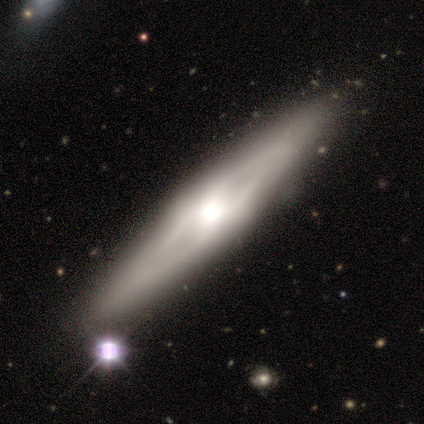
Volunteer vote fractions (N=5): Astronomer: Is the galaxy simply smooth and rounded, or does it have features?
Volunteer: featured or disk — 80%.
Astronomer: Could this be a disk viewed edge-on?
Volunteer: yes — 50%, tied with no at 50%.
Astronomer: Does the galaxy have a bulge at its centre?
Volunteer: none — 50%, tied with rounded at 50%.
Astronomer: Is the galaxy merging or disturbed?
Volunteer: none — 100%.